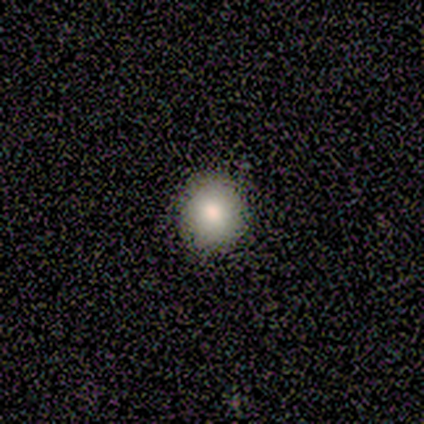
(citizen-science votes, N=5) smooth-or-featured: smooth: 80% | featured or disk: 20% | star or artifact: 0%
  how-rounded: round: 75% | in between: 25% | cigar-shaped: 0%
  merging: none: 100% | minor disturbance: 0% | major disturbance: 0% | merger: 0%